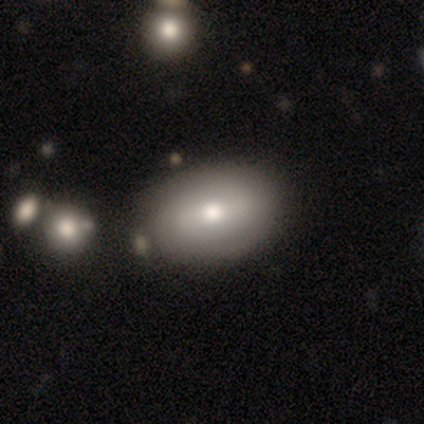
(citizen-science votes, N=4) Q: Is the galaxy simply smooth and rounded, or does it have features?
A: smooth — 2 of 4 (50%).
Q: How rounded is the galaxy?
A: in between — 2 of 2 (100%).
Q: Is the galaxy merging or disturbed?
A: none — 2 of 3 (67%).